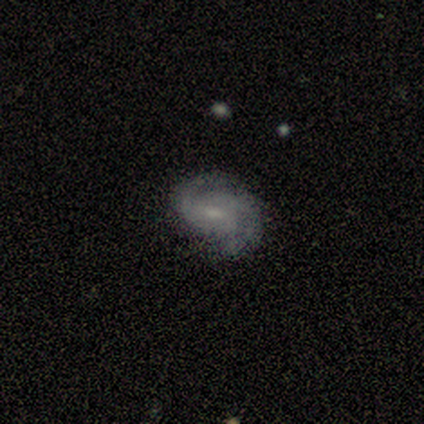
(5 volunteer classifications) Volunteers were most divided on "bulge size" (2-way tie): moderate: 50%, small: 50%, dominant: 0%, large: 0%, none: 0%. More confident: edge-on disk — no (100%); spiral arms — yes (100%); spiral arm count — 2 (100%); merging — none (100%); smooth or featured — featured or disk (80%); bar — no (75%); spiral winding — medium (50%).